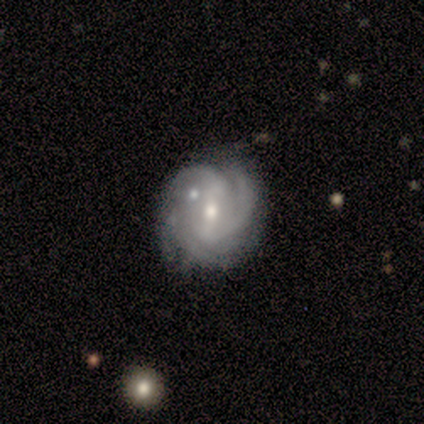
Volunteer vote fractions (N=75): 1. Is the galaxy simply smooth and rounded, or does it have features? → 88% featured or disk, 8% star or artifact, 4% smooth.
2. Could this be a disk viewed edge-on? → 98% no, 2% yes.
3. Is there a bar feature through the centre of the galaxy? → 43% strong (tied), 43% weak (tied), 14% no.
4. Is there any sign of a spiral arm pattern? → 100% yes, 0% no.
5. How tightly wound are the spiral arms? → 55% tight, 34% medium, 11% loose.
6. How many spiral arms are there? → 35% 2, 34% 3, 17% can't tell, 14% 4, 0% 1, 0% more than 4.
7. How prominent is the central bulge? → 60% moderate, 37% small, 3% large, 0% dominant, 0% none.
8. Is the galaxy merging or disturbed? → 64% none, 26% minor disturbance, 7% merger, 3% major disturbance.